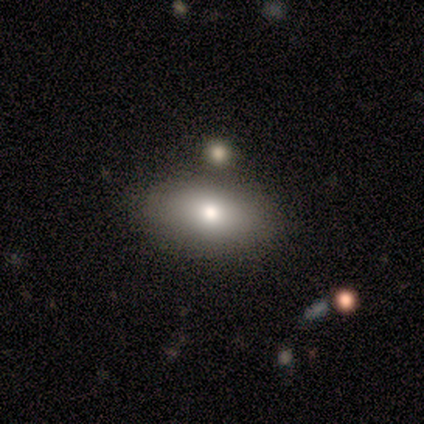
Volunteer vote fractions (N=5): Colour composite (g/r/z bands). It shows a smooth galaxy with no disk features (80%) that is in between round and cigar-shaped (100%). Merging: none (75%).